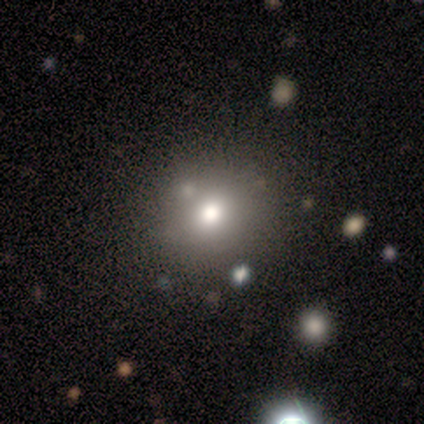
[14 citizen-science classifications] Smooth or featured? 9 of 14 (64%) said smooth. How rounded? 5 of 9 (56%) said round. Merging? 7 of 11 (64%) said none.